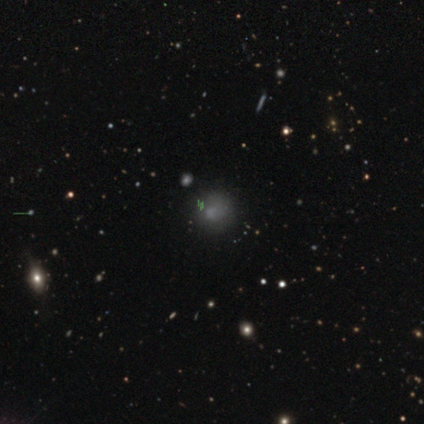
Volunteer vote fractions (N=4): Morphology: type=smooth (50%); roundness=round (100%); merging=none (67%).